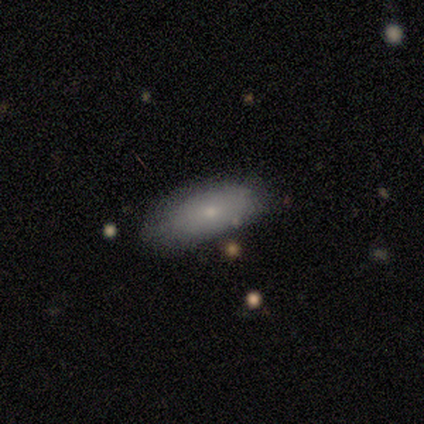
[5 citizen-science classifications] This is clearly a smooth galaxy (100%). How rounded: clearly in between (100%). Merging: marginally none (40%, tied with minor disturbance).